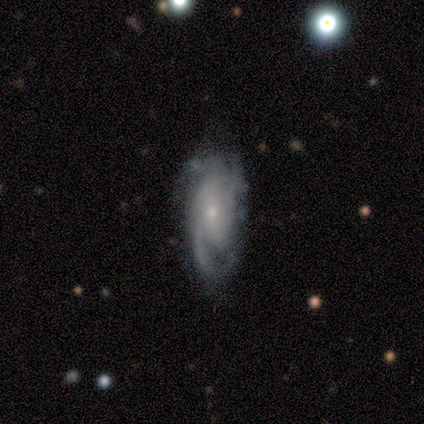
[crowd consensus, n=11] smooth-or-featured: featured or disk: 100% | smooth: 0% | star or artifact: 0%
  disk-edge-on: no: 100% | yes: 0%
    bar: no: 55% | weak: 27% | strong: 18%
    has-spiral-arms: yes: 100% | no: 0%
      spiral-winding: tight: 55% | medium: 36% | loose: 9%
      spiral-arm-count: can't tell: 36% | 3: 27% | 2: 18% | 1: 9% | 4: 9% | more than 4: 0%
    bulge-size: small: 73% | moderate: 18% | none: 9% | dominant: 0% | large: 0%
  merging: none: 64% | minor disturbance: 27% | major disturbance: 9% | merger: 0%